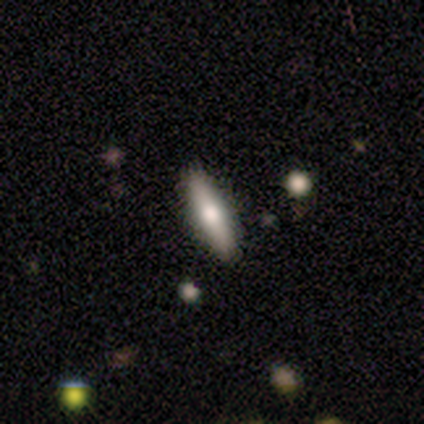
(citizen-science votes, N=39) Smooth or featured? 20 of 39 (51%) said smooth. How rounded? 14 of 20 (70%) said cigar-shaped. Merging? 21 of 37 (57%) said none.